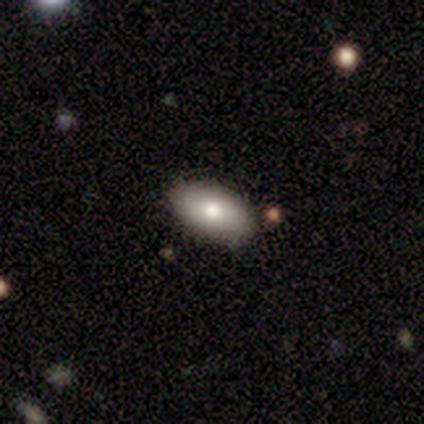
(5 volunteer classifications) Smooth or featured? 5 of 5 (100%) said smooth. How rounded? 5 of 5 (100%) said in between. Merging? 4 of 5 (80%) said none.